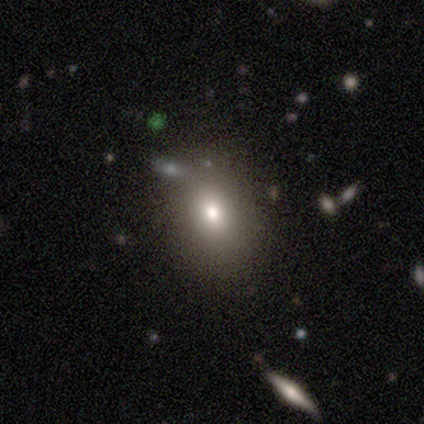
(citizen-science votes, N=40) This is clearly a smooth galaxy (80%). How rounded: likely in between (62%). Merging: clearly none (81%).